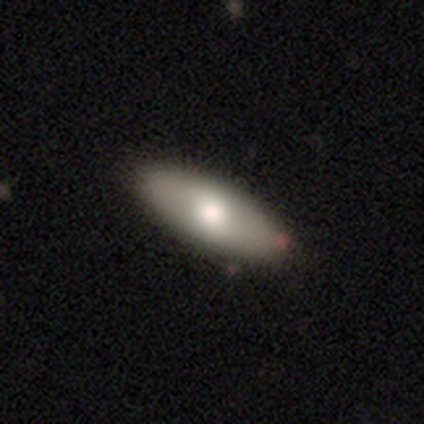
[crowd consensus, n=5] A featured or disk galaxy (60%) with no bar (67%), no spiral arms (67%) and a moderate central bulge (67%).

Vote fractions:
- Smooth or featured? featured or disk: 60% / smooth: 40% / star or artifact: 0%
- Edge-on disk? no: 100% / yes: 0%
- Bar? no: 67% / weak: 33% / strong: 0%
- Spiral arms? no: 67% / yes: 33%
- Bulge size? moderate: 67% / small: 33% / dominant: 0% / large: 0% / none: 0%
- Merging? none: 100% / minor disturbance: 0% / major disturbance: 0% / merger: 0%